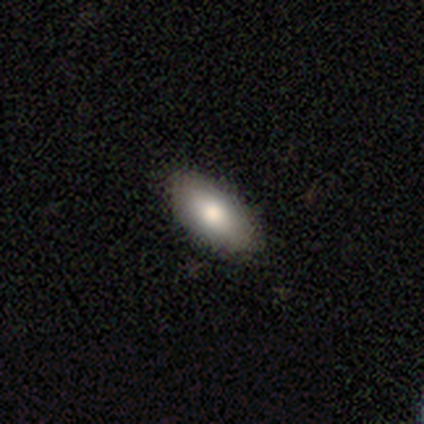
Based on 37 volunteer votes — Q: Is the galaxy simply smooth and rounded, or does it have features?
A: smooth — 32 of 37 (86%).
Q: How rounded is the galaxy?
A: in between — 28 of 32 (88%).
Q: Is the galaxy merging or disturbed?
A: none — 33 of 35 (94%).